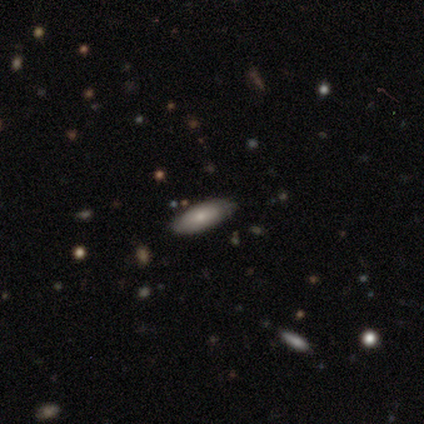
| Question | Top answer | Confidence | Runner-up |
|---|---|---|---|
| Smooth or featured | smooth | 60% | featured or disk (20%) |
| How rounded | in between | 67% | cigar-shaped (33%) |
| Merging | none | 75% | minor disturbance (25%) |